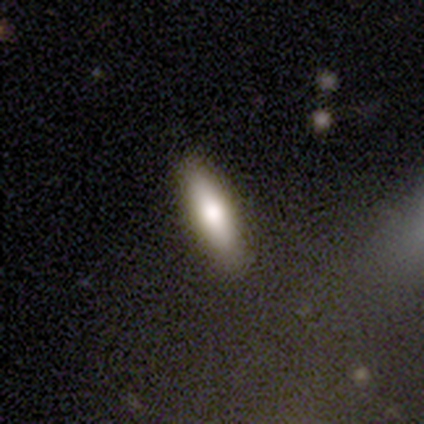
Volunteers were most divided on "smooth or featured": smooth: 60%, featured or disk: 40%, star or artifact: 0%. More confident: how rounded — cigar-shaped (100%); merging — none (100%).